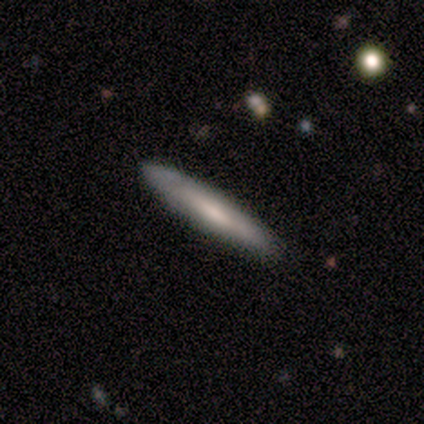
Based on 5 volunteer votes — This appears to be a smooth galaxy with no disk features (100%) that is cigar-shaped (100%). Merging: none (60%).